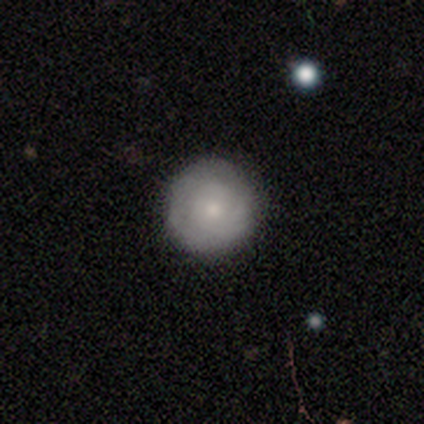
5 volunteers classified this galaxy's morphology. Volunteers were most divided on "smooth or featured": smooth: 60%, featured or disk: 40%, star or artifact: 0%. More confident: how rounded — round (100%); merging — none (100%).